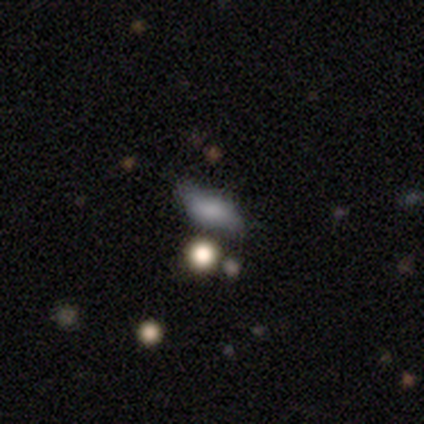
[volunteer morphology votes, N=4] Overall: smooth (50%; featured or disk 25%). How rounded: in between (50%, tied with cigar-shaped). Merging: none (67%; merger 33%).